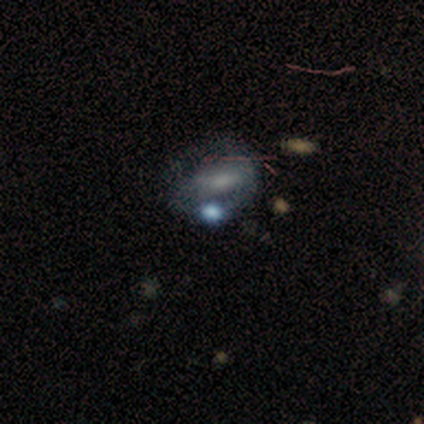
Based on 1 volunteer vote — Consensus on every question: smooth or featured — star or artifact (100%).